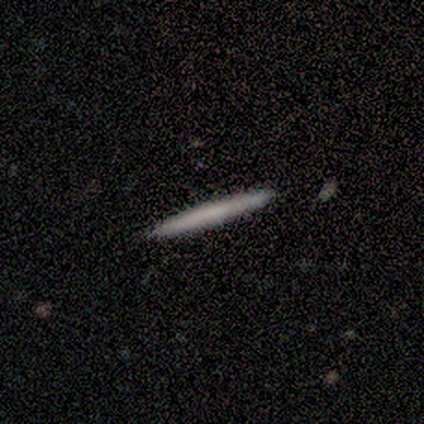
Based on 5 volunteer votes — Smooth or featured?
  - smooth: 60% *
  - featured or disk: 40%
  - star or artifact: 0%
How rounded?
  - cigar-shaped: 100% *
  - round: 0%
  - in between: 0%
Merging?
  - none: 100% *
  - minor disturbance: 0%
  - major disturbance: 0%
  - merger: 0%